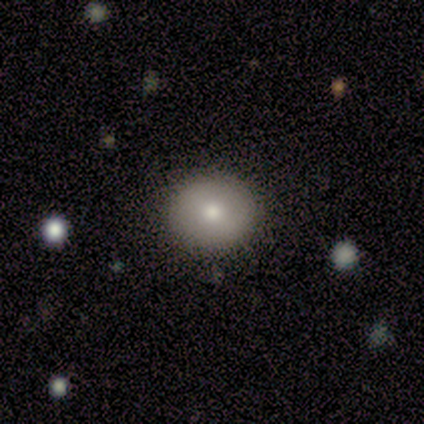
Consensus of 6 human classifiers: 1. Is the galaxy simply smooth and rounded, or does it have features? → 83% smooth, 17% featured or disk, 0% star or artifact.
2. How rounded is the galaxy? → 80% round, 20% in between, 0% cigar-shaped.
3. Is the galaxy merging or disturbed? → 100% none, 0% minor disturbance, 0% major disturbance, 0% merger.